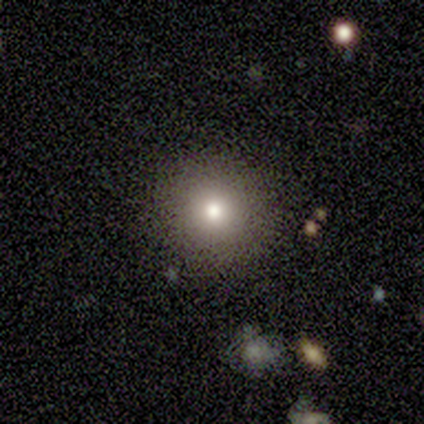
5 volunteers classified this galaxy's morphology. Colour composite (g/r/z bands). It shows a smooth galaxy with no disk features (60%) that is round (100%). Merging: none (100%).